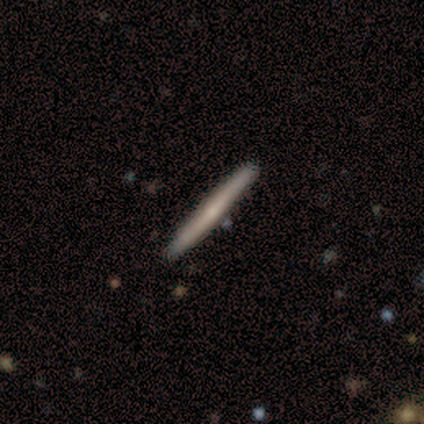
smooth-or-featured: featured or disk: 60% | smooth: 40% | star or artifact: 0%
  disk-edge-on: yes: 67% | no: 33%
    edge-on-bulge: boxy: 50% (tied) | rounded: 50% (tied) | none: 0%
  merging: none: 100% | minor disturbance: 0% | major disturbance: 0% | merger: 0%